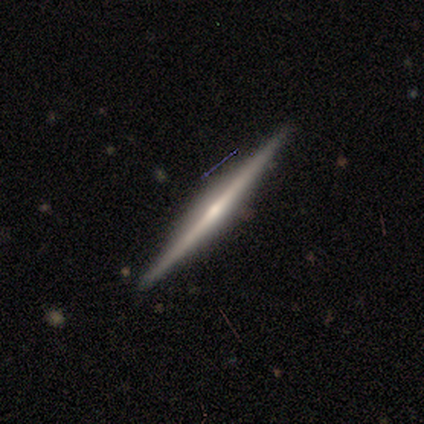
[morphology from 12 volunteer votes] This is clearly a featured or disk galaxy (83%). It is clearly viewed edge-on (100%). Edge-on bulge: clearly rounded (80%). Merging: clearly none (100%).